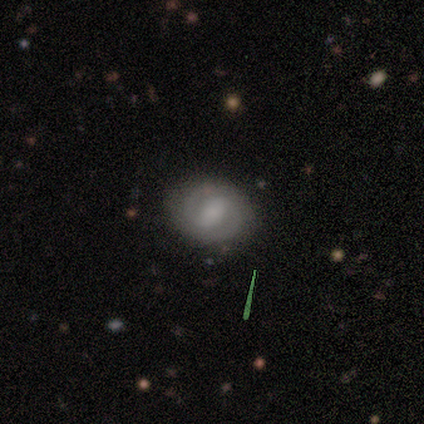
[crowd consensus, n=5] This is clearly a featured or disk galaxy (80%). It is clearly not viewed edge-on (100%). Bar: possibly strong (50%). Spiral arm pattern: clearly yes (100%). Spiral arm count: clearly 2 (100%). Spiral winding: possibly tight (50%). Central bulge: marginally dominant (25%, tied with large, small and none). Merging: clearly none (100%).